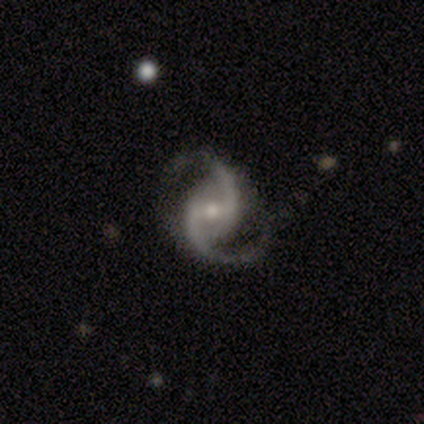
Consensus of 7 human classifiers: featured or disk 100%, smooth 0%, star or artifact 0%. Down the decision tree: edge-on disk — no (100%); bar — weak (57%); spiral arms — yes (100%); spiral arm count — 2 (100%); spiral winding — medium (86%); bulge size — small (43%); merging — none (71%).